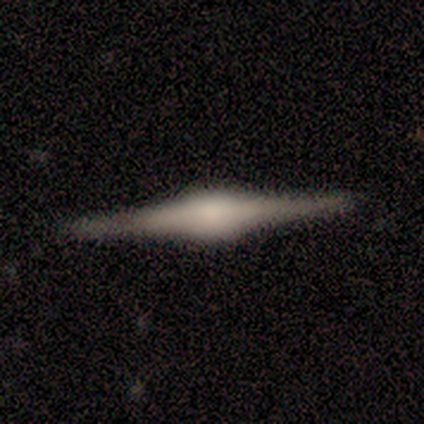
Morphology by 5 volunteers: Smooth or featured? featured or disk (100%)
Edge-on disk? yes (80%)
Edge-on bulge? rounded (100%)
Merging? none (80%)